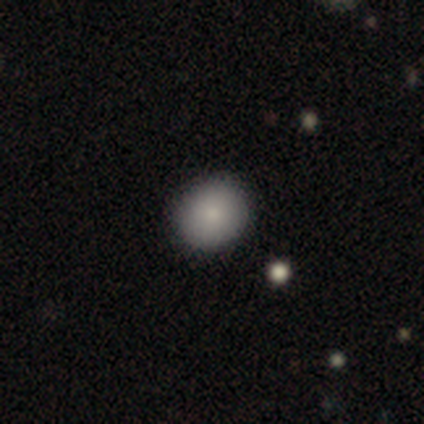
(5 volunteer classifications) Smooth or featured? 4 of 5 (80%) said smooth. How rounded? 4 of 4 (100%) said round. Merging? 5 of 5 (100%) said none.